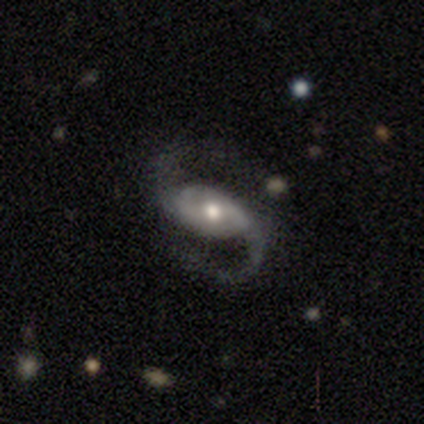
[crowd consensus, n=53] featured or disk 92%, smooth 4%, star or artifact 4%. Down the decision tree: edge-on disk — no (100%); bar — weak (43%, tied with no); spiral arms — yes (100%); spiral arm count — 2 (100%); spiral winding — loose (55%); bulge size — moderate (80%); merging — none (76%).